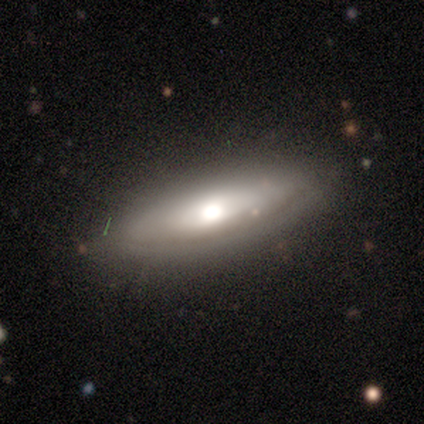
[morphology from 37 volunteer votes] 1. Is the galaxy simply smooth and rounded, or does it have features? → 54% smooth, 41% featured or disk, 5% star or artifact.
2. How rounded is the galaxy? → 50% cigar-shaped, 45% in between, 5% round.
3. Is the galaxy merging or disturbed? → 74% none, 23% minor disturbance, 3% merger, 0% major disturbance.